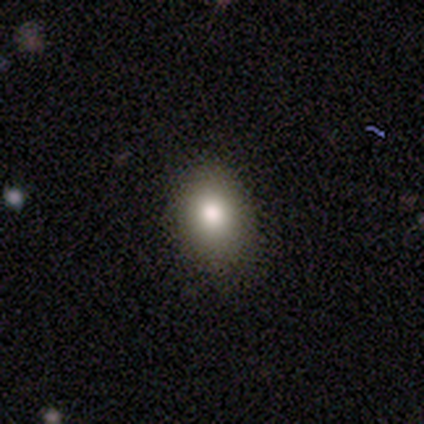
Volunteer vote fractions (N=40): Smooth or featured? 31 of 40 (78%) said smooth. How rounded? 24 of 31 (77%) said in between. Merging? 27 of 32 (84%) said none.